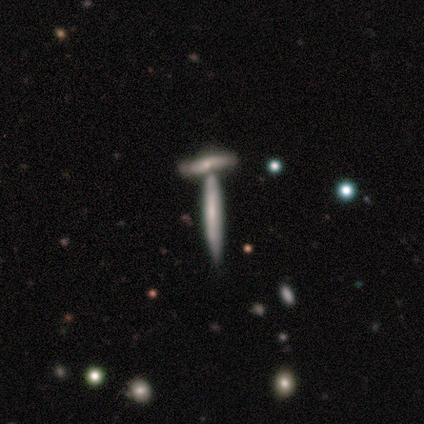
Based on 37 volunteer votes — A featured or disk galaxy (73%) viewed edge-on (81%) with no central bulge (77%).

Vote fractions:
- Smooth or featured? featured or disk: 73% / smooth: 24% / star or artifact: 3%
- Edge-on disk? yes: 81% / no: 19%
- Edge-on bulge? none: 77% / rounded: 14% / boxy: 9%
- Merging? none: 61% / merger: 36% / minor disturbance: 3% / major disturbance: 0%